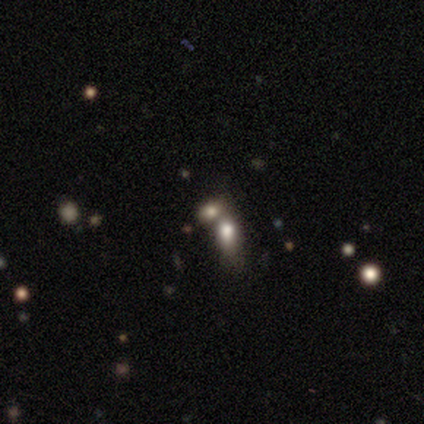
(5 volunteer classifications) Smooth or featured? 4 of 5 (80%) said smooth. How rounded? 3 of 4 (75%) said round. Merging? 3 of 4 (75%) said merger.